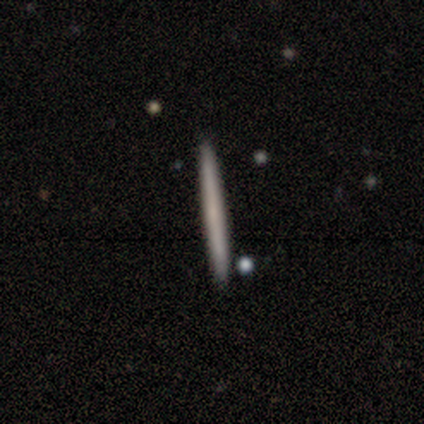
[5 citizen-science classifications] Smooth or featured?
  - smooth: 60% *
  - featured or disk: 40%
  - star or artifact: 0%
How rounded?
  - cigar-shaped: 100% *
  - round: 0%
  - in between: 0%
Merging?
  - none: 100% *
  - minor disturbance: 0%
  - major disturbance: 0%
  - merger: 0%